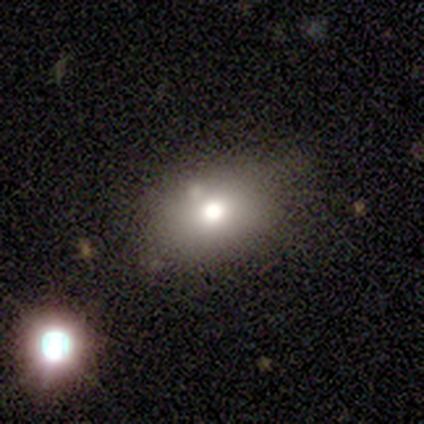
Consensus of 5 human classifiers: A smooth galaxy with no disk features (80%) that is in between round and cigar-shaped (100%). Merging: none (60%).